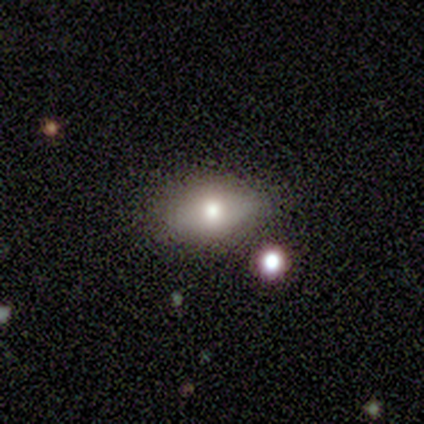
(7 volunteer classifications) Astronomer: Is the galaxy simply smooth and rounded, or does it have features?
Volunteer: smooth — 86%.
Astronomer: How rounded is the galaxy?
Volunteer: in between — 83%.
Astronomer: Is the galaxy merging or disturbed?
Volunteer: none — 71%.